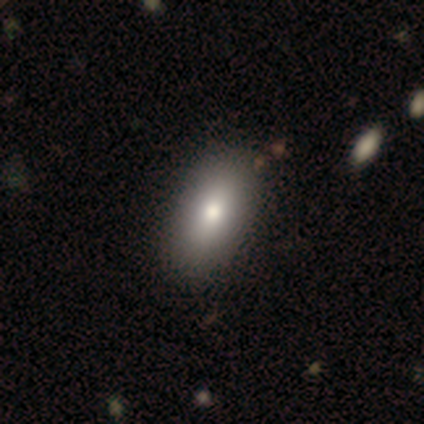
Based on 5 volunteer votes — Smooth or featured: smooth — 60% (featured or disk — 40%)
How rounded: in between — 100%
Merging: none — 60% (minor disturbance — 20%)